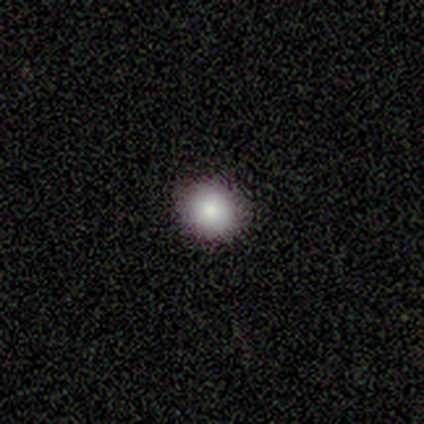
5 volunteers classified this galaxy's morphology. A smooth galaxy with no disk features (60%) that is round (100%).

Vote fractions:
- Smooth or featured? smooth: 60% / star or artifact: 40% / featured or disk: 0%
- How rounded? round: 100% / in between: 0% / cigar-shaped: 0%
- Merging? none: 100% / minor disturbance: 0% / major disturbance: 0% / merger: 0%